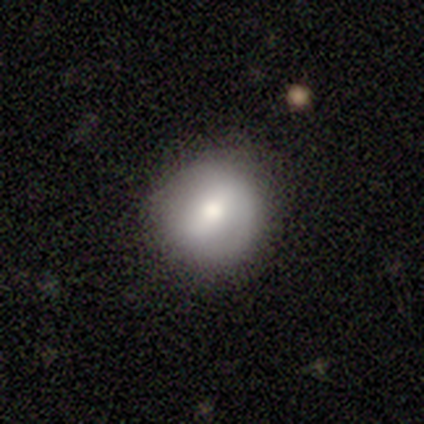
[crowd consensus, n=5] Smooth or featured? smooth (100%)
How rounded? round (100%)
Merging? none (100%)